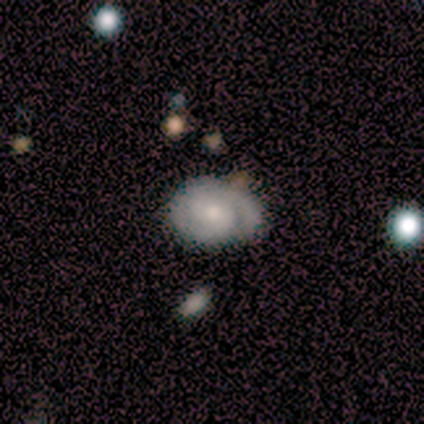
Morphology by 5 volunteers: Smooth or featured?
  - featured or disk: 80% *
  - smooth: 20%
  - star or artifact: 0%
Edge-on disk?
  - no: 100% *
  - yes: 0%
Bar?
  - no: 75% *
  - weak: 25%
  - strong: 0%
Spiral arms?
  - yes: 100% *
  - no: 0%
Spiral winding?
  - tight: 100% *
  - medium: 0%
  - loose: 0%
Spiral arm count?
  - 2: 50% *
  - 3: 25%
  - can't tell: 25%
  - 1: 0%
  - 4: 0%
  - more than 4: 0%
Bulge size?
  - moderate: 50% * (tied)
  - small: 50% * (tied)
  - dominant: 0%
  - large: 0%
  - none: 0%
Merging?
  - none: 80% *
  - minor disturbance: 20%
  - major disturbance: 0%
  - merger: 0%